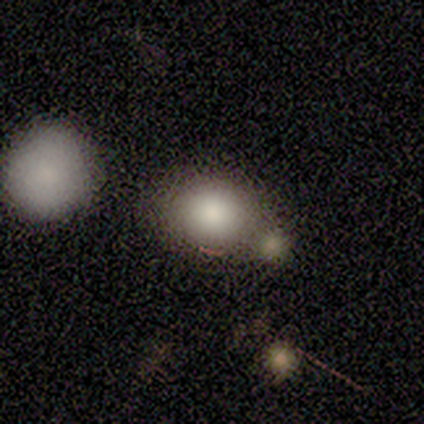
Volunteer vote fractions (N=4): Overall: smooth (100%). How rounded: round (75%). Merging: none (50%, tied with merger).